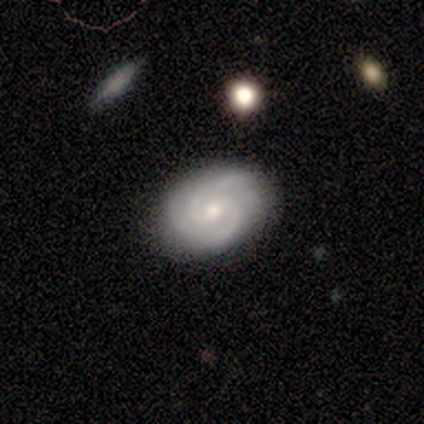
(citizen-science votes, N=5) Smooth or featured? 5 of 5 (100%) said featured or disk. Edge-on disk? 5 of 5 (100%) said no. Bar? 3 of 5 (60%) said weak. Spiral arms? 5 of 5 (100%) said yes. Spiral winding? 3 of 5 (60%) said tight. Spiral arm count? 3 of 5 (60%) said 3. Bulge size? 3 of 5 (60%) said small. Merging? 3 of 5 (60%) said none.